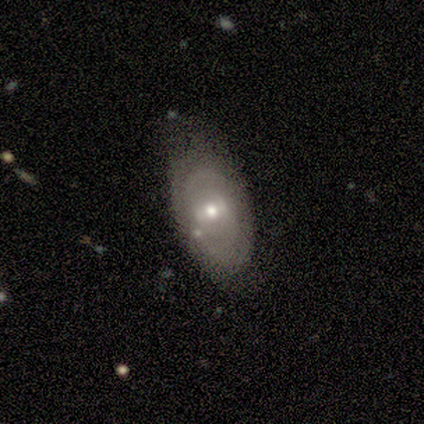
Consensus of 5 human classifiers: Smooth or featured: featured or disk — 80% (smooth — 20%)
Edge-on disk: no — 100%
Bar: weak — 50% (strong — 25%)
Spiral arms: no — 75% (yes — 25%)
Bulge size: moderate — 50% (tied with small — 50%)
Merging: none — 40% (tied with minor disturbance — 40%)